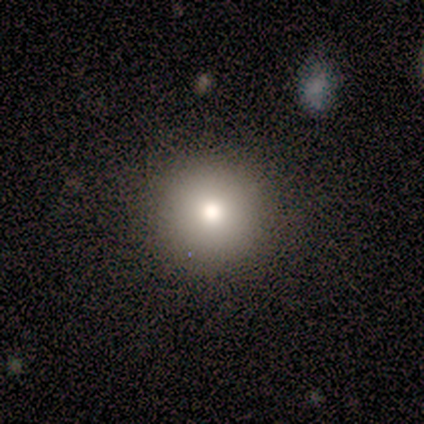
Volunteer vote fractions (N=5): smooth-or-featured: smooth: 100% | featured or disk: 0% | star or artifact: 0%
  how-rounded: round: 100% | in between: 0% | cigar-shaped: 0%
  merging: none: 100% | minor disturbance: 0% | major disturbance: 0% | merger: 0%